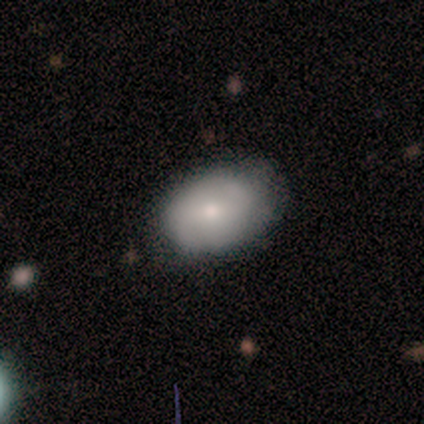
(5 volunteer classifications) smooth-or-featured: smooth: 40% (tied) | featured or disk: 40% (tied) | star or artifact: 20%
  how-rounded: in between: 100% | round: 0% | cigar-shaped: 0%
  merging: none: 50% (tied) | minor disturbance: 50% (tied) | major disturbance: 0% | merger: 0%